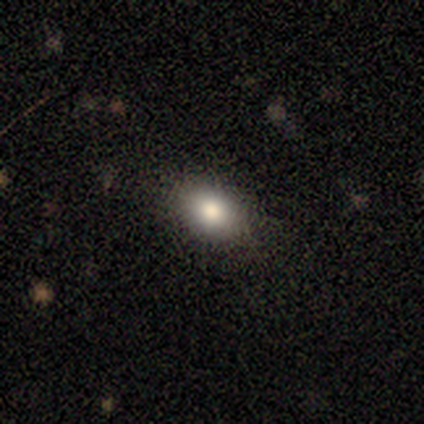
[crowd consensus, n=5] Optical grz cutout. It shows a smooth galaxy with no disk features (100%) that is in between round and cigar-shaped (80%). Merging: none (80%).